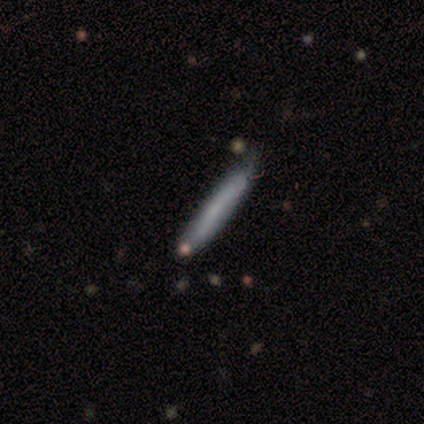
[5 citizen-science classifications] This appears to be a smooth galaxy with no disk features (80%) that is cigar-shaped (100%). Merging: minor disturbance (60%).